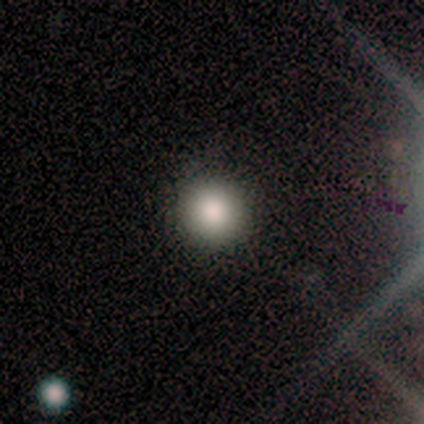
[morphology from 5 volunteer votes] Smooth or featured? smooth (100%)
How rounded? round (100%)
Merging? none (80%)